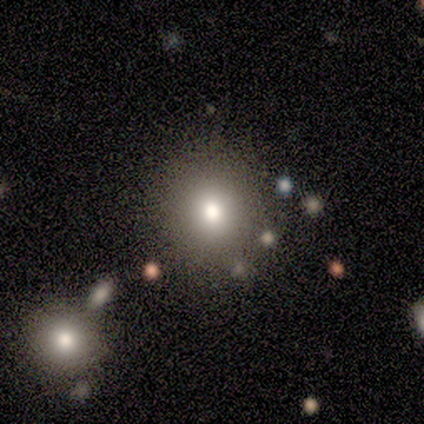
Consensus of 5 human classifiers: Q: Smooth or featured?
A: smooth (80%); runner-up: featured or disk (20%)
Q: How rounded?
A: round (100%)
Q: Merging?
A: none (100%)